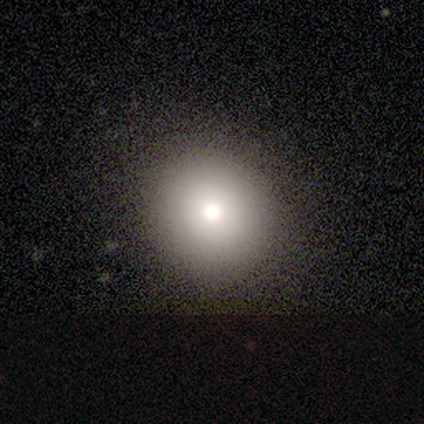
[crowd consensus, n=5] This is likely a smooth galaxy (60%). How rounded: clearly round (100%). Merging: clearly none (100%).